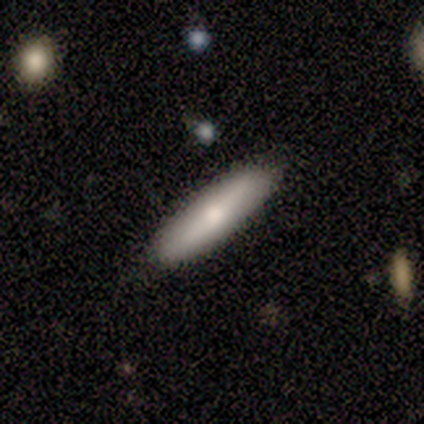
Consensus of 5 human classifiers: Overall: smooth (60%; featured or disk 40%). How rounded: cigar-shaped (100%). Merging: none (80%).